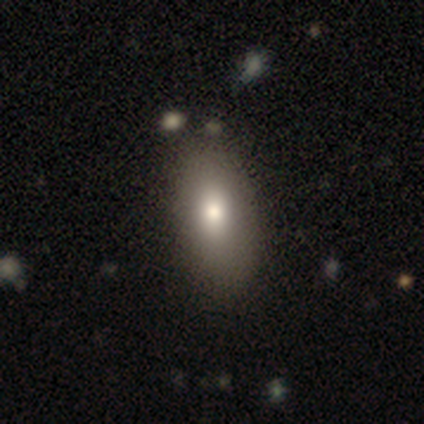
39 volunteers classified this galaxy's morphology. Smooth or featured? 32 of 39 (82%) said smooth. How rounded? 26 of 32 (81%) said in between. Merging? 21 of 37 (57%) said none.